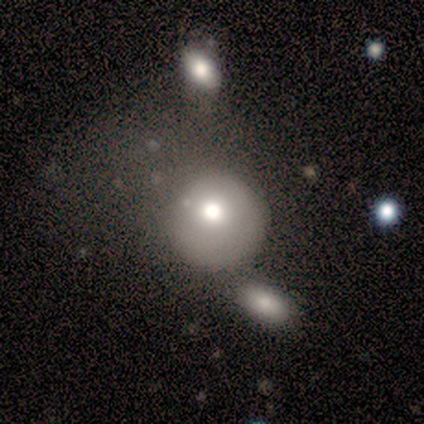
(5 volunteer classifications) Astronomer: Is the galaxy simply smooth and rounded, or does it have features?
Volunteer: featured or disk — 80%.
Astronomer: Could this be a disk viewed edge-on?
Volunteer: no — 100%.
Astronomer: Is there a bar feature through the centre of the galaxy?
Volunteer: no — 100%.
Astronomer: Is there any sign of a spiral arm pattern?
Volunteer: no — 100%.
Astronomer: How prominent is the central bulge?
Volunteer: moderate — 100%.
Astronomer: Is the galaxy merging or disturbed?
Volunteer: none — 40% (runner-up: minor disturbance, 20%).